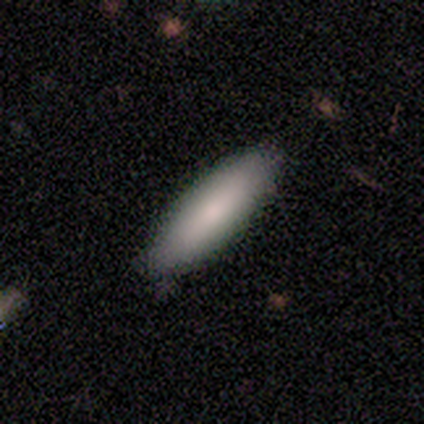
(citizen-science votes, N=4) Q: Smooth or featured?
A: smooth (50%); tied with: star or artifact (50%)
Q: How rounded?
A: in between (50%); tied with: cigar-shaped (50%)
Q: Merging?
A: none (100%)